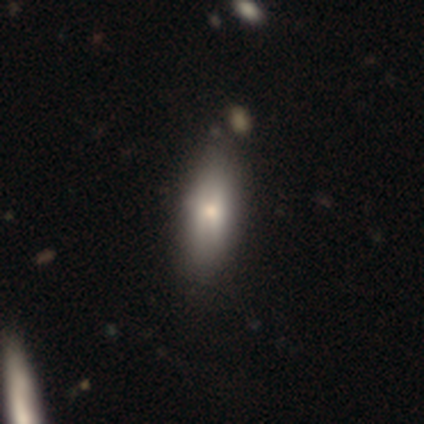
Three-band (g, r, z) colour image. It shows a smooth galaxy with no disk features (78%) that is in between round and cigar-shaped (73%). Merging: none (35%).